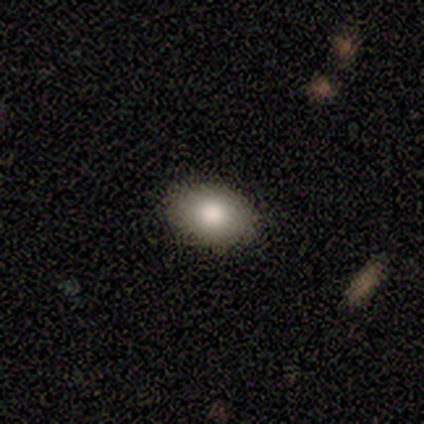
Smooth or featured?
  - smooth: 92% *
  - featured or disk: 8%
  - star or artifact: 0%
How rounded?
  - in between: 73% *
  - round: 27%
  - cigar-shaped: 0%
Merging?
  - none: 100% *
  - minor disturbance: 0%
  - major disturbance: 0%
  - merger: 0%